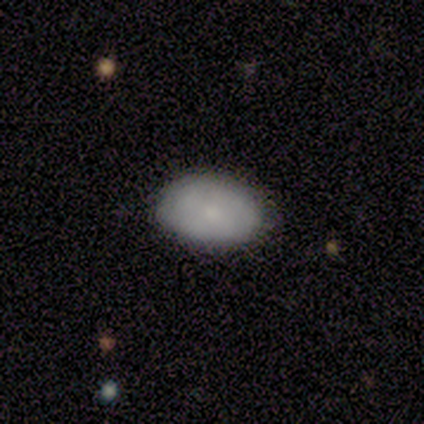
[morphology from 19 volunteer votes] smooth 95%, star or artifact 5%, featured or disk 0%. Down the decision tree: how rounded — in between (94%); merging — none (83%).